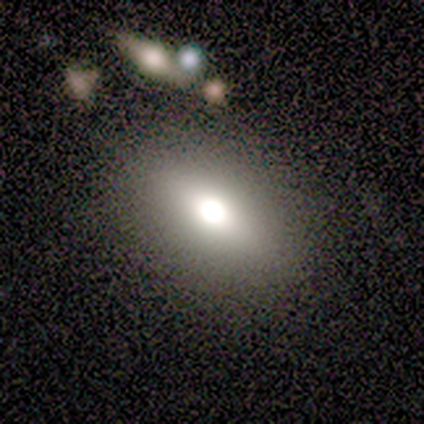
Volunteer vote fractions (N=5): This is likely a smooth galaxy (60%). How rounded: clearly in between (100%). Merging: clearly none (100%).